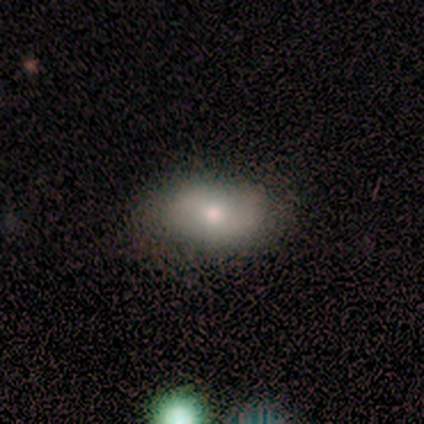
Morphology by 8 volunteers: smooth-or-featured: smooth: 88% | star or artifact: 12% | featured or disk: 0%
  how-rounded: in between: 100% | round: 0% | cigar-shaped: 0%
  merging: none: 86% | major disturbance: 14% | minor disturbance: 0% | merger: 0%